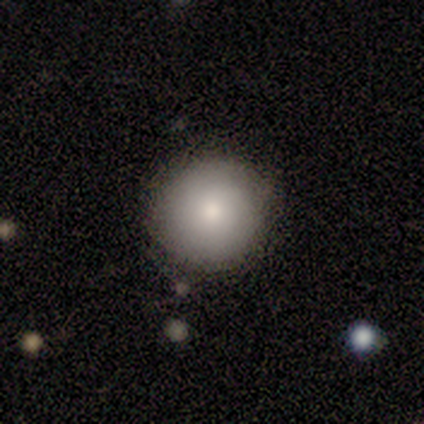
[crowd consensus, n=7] A smooth galaxy with no disk features (100%) that is round (100%).

Vote fractions:
- Smooth or featured? smooth: 100% / featured or disk: 0% / star or artifact: 0%
- How rounded? round: 100% / in between: 0% / cigar-shaped: 0%
- Merging? none: 100% / minor disturbance: 0% / major disturbance: 0% / merger: 0%